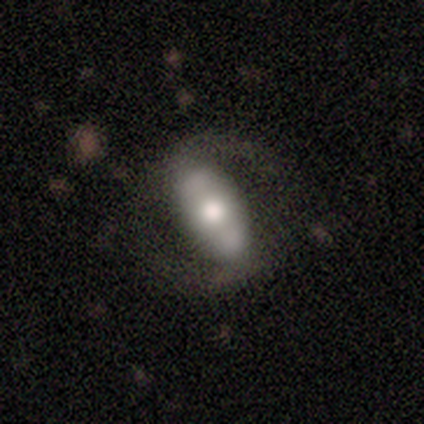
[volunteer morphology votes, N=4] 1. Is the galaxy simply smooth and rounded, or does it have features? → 100% featured or disk, 0% smooth, 0% star or artifact.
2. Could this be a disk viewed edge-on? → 100% no, 0% yes.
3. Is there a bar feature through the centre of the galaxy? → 50% strong (tied), 50% no (tied), 0% weak.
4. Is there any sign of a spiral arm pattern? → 75% yes, 25% no.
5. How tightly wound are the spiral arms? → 67% medium, 33% loose, 0% tight.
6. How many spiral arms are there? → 100% 2, 0% 1, 0% 3, 0% 4, 0% more than 4, 0% can't tell.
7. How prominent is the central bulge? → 75% moderate, 25% small, 0% dominant, 0% large, 0% none.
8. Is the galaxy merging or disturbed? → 100% none, 0% minor disturbance, 0% major disturbance, 0% merger.